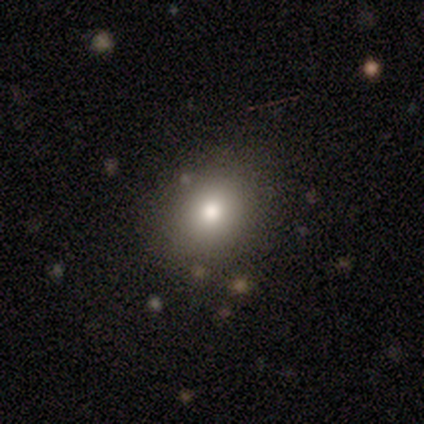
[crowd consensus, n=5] Volunteers were most divided on "how rounded": round: 75%, in between: 25%, cigar-shaped: 0%. More confident: merging — none (100%); smooth or featured — smooth (80%).